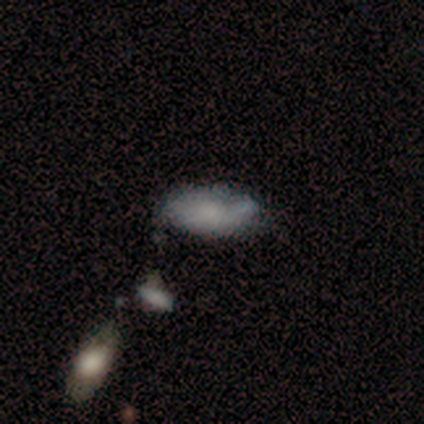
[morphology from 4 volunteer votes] type=smooth (75%); roundness=in between (100%); merging=minor disturbance (100%).